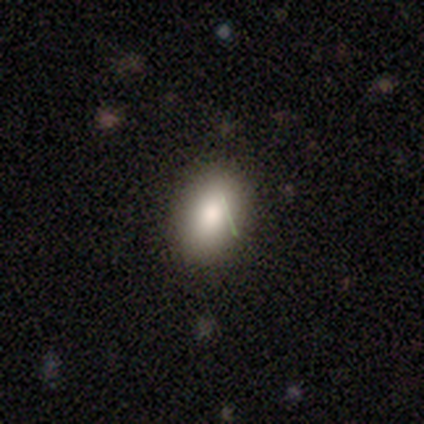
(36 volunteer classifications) Smooth or featured: smooth — 75% (star or artifact — 14%)
How rounded: in between — 96% (round — 4%)
Merging: none — 90% (minor disturbance — 10%)